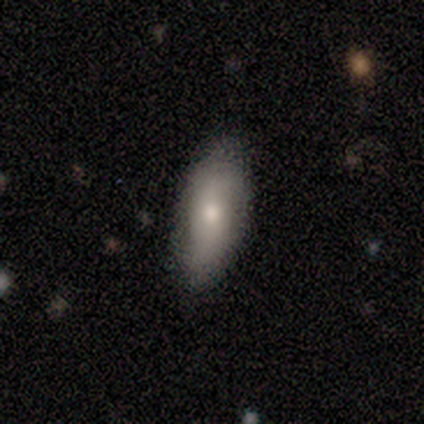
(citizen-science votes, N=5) Overall: smooth (80%). How rounded: in between (75%). Merging: none (50%, tied with minor disturbance).